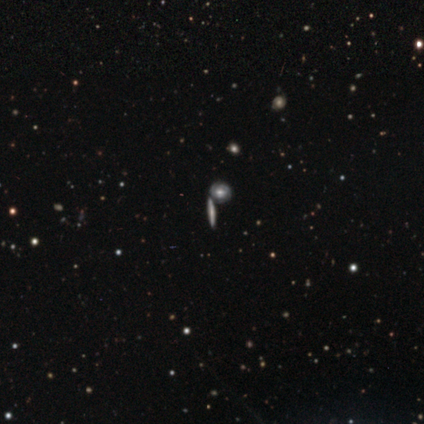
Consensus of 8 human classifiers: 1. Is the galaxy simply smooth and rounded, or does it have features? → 88% smooth, 12% featured or disk, 0% star or artifact.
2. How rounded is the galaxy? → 57% cigar-shaped, 29% round, 14% in between.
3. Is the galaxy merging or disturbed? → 62% none, 38% merger, 0% minor disturbance, 0% major disturbance.